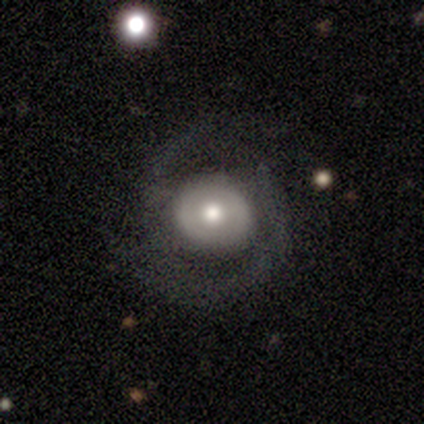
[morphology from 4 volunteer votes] smooth 75%, featured or disk 25%, star or artifact 0%. Down the decision tree: how rounded — round (100%); merging — none (75%).